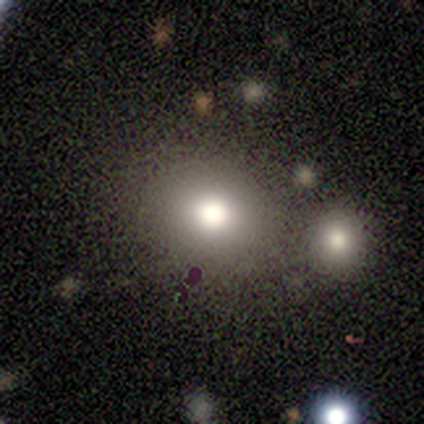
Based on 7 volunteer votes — Smooth or featured? 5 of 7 (71%) said smooth. How rounded? 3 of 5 (60%) said in between. Merging? 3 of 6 (50%) said none.